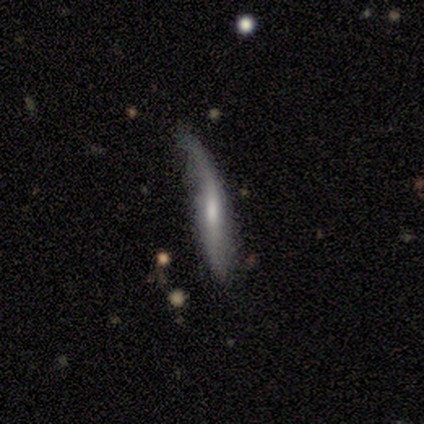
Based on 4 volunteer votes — Smooth or featured? featured or disk (75%)
Edge-on disk? yes (100%)
Edge-on bulge? none (100%)
Merging? minor disturbance (50%, tied with major disturbance)